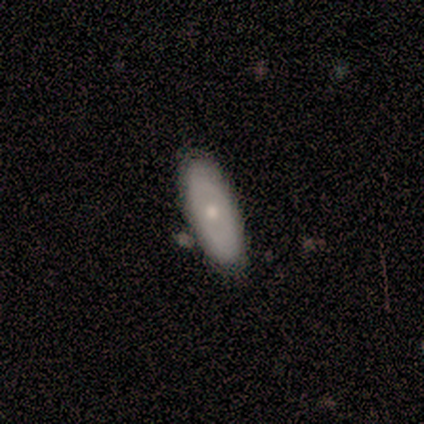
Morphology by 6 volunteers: featured or disk 67%, smooth 33%, star or artifact 0%. Down the decision tree: edge-on disk — no (100%); bar — no (100%); spiral arms — no (100%); bulge size — moderate (75%); merging — none (100%).